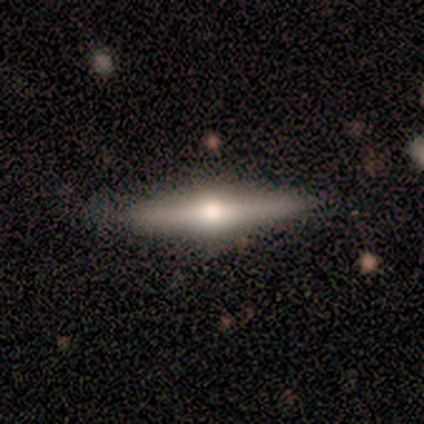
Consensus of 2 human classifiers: This appears to be a smooth galaxy with no disk features (100%) that is in between round and cigar-shaped (100%). Merging: none (100%).